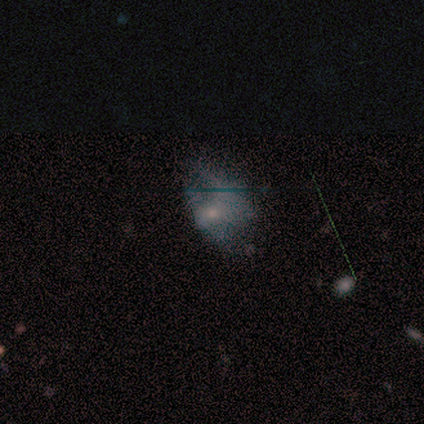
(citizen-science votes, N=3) Smooth or featured? 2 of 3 (67%) said featured or disk. Edge-on disk? 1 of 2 (50%, tied with no) said yes. Edge-on bulge? 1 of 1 (100%) said rounded. Merging? 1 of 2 (50%, tied with major disturbance) said none.